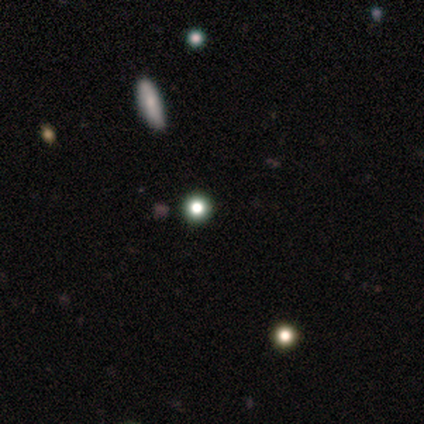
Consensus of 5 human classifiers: smooth_or_featured: star or artifact (p=0.60) [alt: smooth p=0.40]